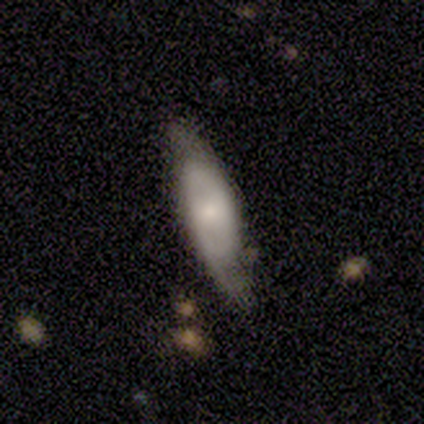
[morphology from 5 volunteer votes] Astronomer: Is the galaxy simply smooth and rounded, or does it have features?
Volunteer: smooth — 60% (runner-up: featured or disk, 40%).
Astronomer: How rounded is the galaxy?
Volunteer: in between — 100%.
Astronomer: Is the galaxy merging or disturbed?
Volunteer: none — 60% (runner-up: major disturbance, 40%).